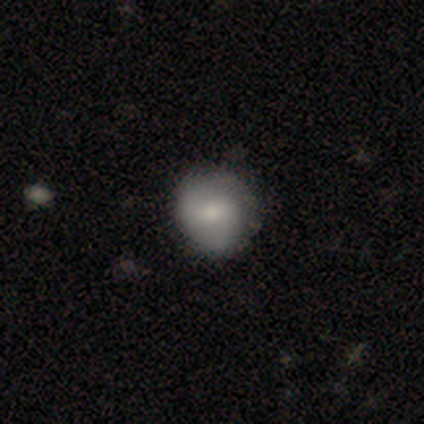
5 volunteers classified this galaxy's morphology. Q: Smooth or featured?
A: featured or disk (60%); runner-up: smooth (40%)
Q: Edge-on disk?
A: no (100%)
Q: Bar?
A: weak (100%)
Q: Spiral arms?
A: yes (67%); runner-up: no (33%)
Q: Spiral winding?
A: tight (50%); tied with: loose (50%)
Q: Spiral arm count?
A: 2 (50%); tied with: can't tell (50%)
Q: Bulge size?
A: moderate (100%)
Q: Merging?
A: none (60%); runner-up: minor disturbance (20%)